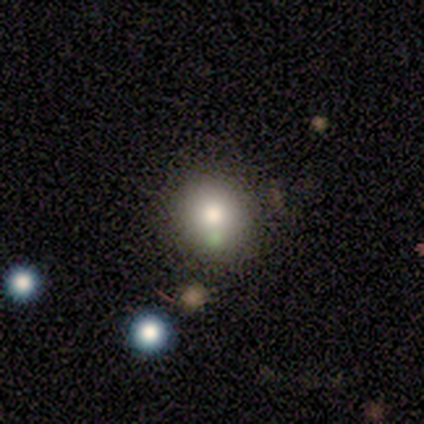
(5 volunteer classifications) Morphology: type=smooth (100%); roundness=round (100%); merging=none (100%).